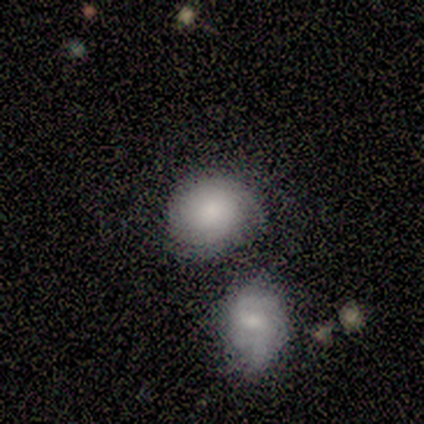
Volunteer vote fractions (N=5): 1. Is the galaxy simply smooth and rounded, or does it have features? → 60% smooth, 40% featured or disk, 0% star or artifact.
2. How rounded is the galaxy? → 100% round, 0% in between, 0% cigar-shaped.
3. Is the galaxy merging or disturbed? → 40% none (tied), 40% merger (tied), 20% minor disturbance, 0% major disturbance.